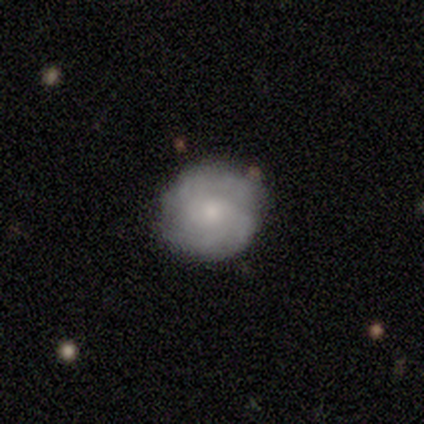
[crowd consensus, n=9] smooth_or_featured: featured or disk (p=0.56) [alt: smooth p=0.44]
disk_edge_on: no (p=1.00)
bar: no (p=0.60) [alt: weak p=0.40]
has_spiral_arms: yes (p=1.00)
spiral_winding: tight (p=0.60) [alt: medium p=0.20]
spiral_arm_count: can't tell (p=0.60) [alt: 2 p=0.20]
bulge_size: moderate (p=0.40) [tied with: small p=0.40]
merging: none (p=0.89) [alt: minor disturbance p=0.11]